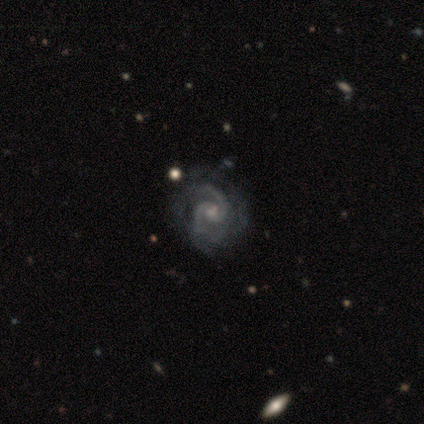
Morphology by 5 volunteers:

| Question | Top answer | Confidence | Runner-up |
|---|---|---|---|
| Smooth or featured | featured or disk | 100% | — |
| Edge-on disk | no | 100% | — |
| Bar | weak | 60% | no (40%) |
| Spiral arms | yes | 100% | — |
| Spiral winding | medium | 80% | loose (20%) |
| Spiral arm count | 2 | 80% | 4 (20%) |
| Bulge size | small | 40% | large (20%) |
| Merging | none | 60% | minor disturbance (40%) |